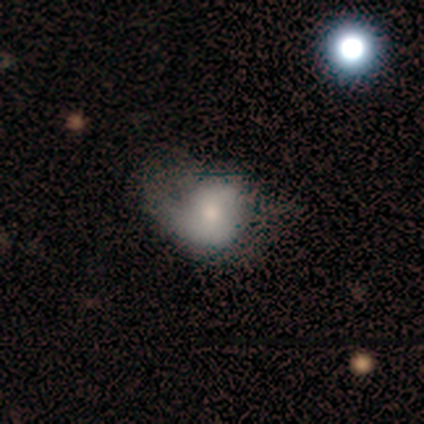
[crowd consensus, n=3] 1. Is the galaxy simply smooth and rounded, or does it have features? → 67% smooth, 33% featured or disk, 0% star or artifact.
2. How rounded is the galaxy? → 100% round, 0% in between, 0% cigar-shaped.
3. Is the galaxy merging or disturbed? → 67% none, 33% minor disturbance, 0% major disturbance, 0% merger.